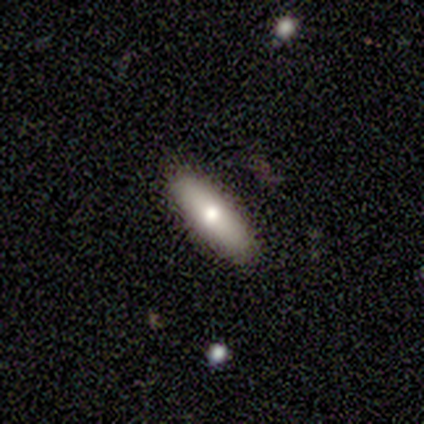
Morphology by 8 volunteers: Overall: smooth (50%; featured or disk 38%). How rounded: in between (75%). Merging: none (86%).